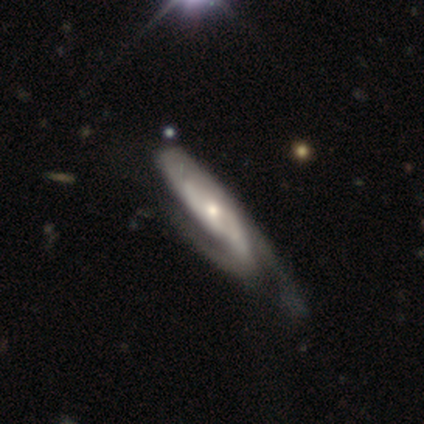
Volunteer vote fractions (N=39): Smooth or featured: featured or disk — 87% (smooth — 13%)
Edge-on disk: no — 74% (yes — 26%)
Bar: no — 80% (strong — 12%)
Spiral arms: yes — 100%
Spiral winding: medium — 64% (tight — 20%)
Spiral arm count: 2 — 68% (can't tell — 28%)
Bulge size: moderate — 56% (small — 32%)
Merging: none — 33% (minor disturbance — 21%)